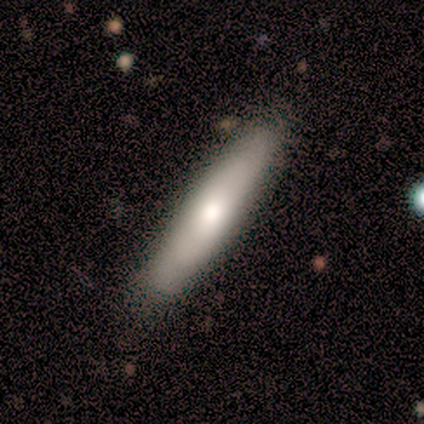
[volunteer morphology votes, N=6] This is clearly a smooth galaxy (83%). How rounded: clearly cigar-shaped (100%). Merging: likely none (67%).